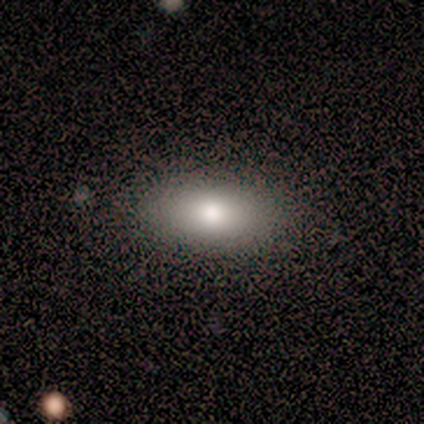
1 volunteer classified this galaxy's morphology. Smooth or featured? smooth (100%)
How rounded? in between (100%)
Merging? none (100%)